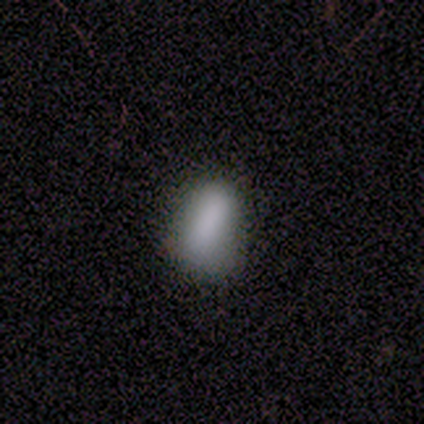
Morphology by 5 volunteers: A smooth galaxy with no disk features (80%) that is in between round and cigar-shaped (75%). Merging: none (40%, tied with minor disturbance).